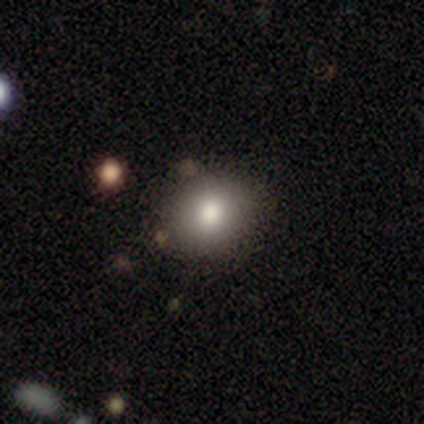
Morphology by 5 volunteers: A smooth galaxy with no disk features (80%) that is round (75%). Merging: none (80%).